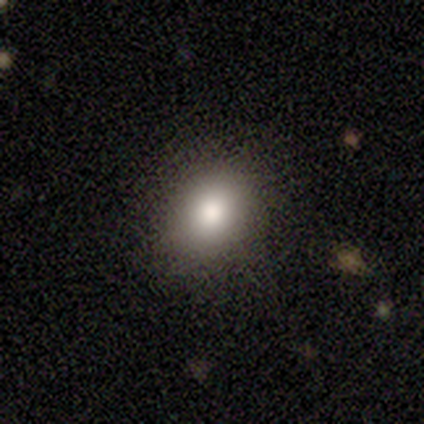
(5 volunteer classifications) smooth-or-featured: smooth: 60% | featured or disk: 20% | star or artifact: 20%
  how-rounded: in between: 67% | round: 33% | cigar-shaped: 0%
  merging: none: 75% | minor disturbance: 25% | major disturbance: 0% | merger: 0%